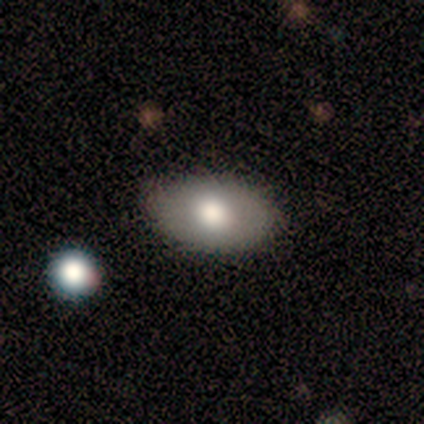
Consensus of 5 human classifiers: This is likely a smooth galaxy (60%). How rounded: clearly in between (100%). Merging: clearly none (80%).